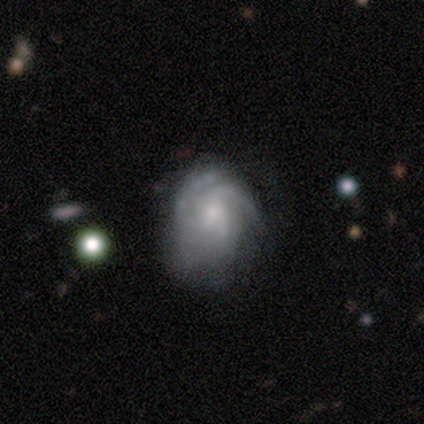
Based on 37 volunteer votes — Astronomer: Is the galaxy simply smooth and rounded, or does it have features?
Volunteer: featured or disk — 86%.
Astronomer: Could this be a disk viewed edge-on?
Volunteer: no — 100%.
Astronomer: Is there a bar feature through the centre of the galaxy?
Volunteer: no — 66%.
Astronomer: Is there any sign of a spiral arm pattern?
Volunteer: yes — 91%.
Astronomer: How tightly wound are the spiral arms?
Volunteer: medium — 52% (runner-up: tight, 38%).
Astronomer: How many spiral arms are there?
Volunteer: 3 — 52%.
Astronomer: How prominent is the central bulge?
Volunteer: small — 47% (runner-up: moderate, 44%).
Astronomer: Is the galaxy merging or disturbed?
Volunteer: none — 28% (runner-up: major disturbance, 19%).